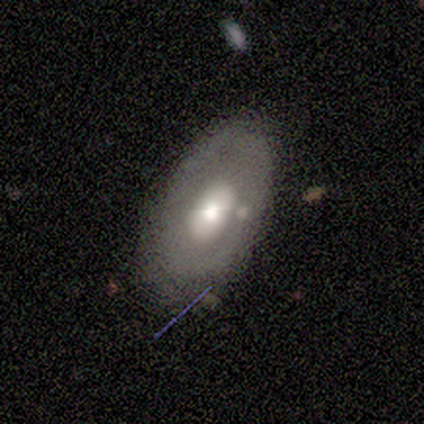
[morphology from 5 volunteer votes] Smooth or featured? featured or disk (80%)
Edge-on disk? no (75%)
Bar? no (100%)
Spiral arms? yes (67%)
Spiral winding? tight (50%, tied with loose)
Spiral arm count? can't tell (100%)
Bulge size? moderate (67%)
Merging? none (60%)